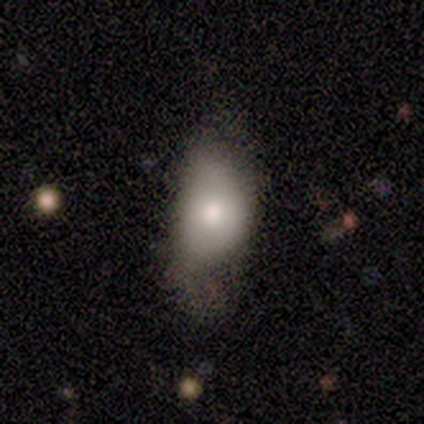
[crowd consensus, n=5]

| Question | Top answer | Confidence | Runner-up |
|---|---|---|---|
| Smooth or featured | smooth | 60% | featured or disk (20%) |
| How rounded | in between | 100% | — |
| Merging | none | 50% | tied: major disturbance (50%) |